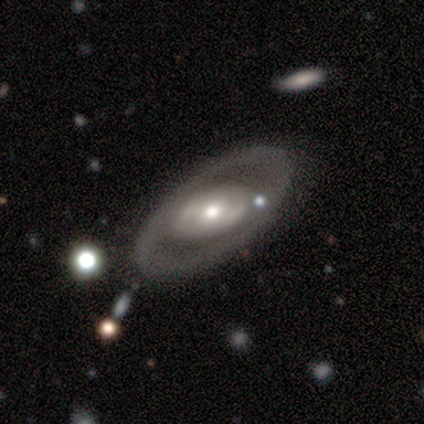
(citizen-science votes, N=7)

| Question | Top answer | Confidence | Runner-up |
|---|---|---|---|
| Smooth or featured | featured or disk | 100% | — |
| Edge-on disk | no | 71% | yes (29%) |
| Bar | strong | 40% | tied: weak (40%) |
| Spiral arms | no | 80% | yes (20%) |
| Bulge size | moderate | 60% | small (40%) |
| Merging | none | 86% | merger (14%) |